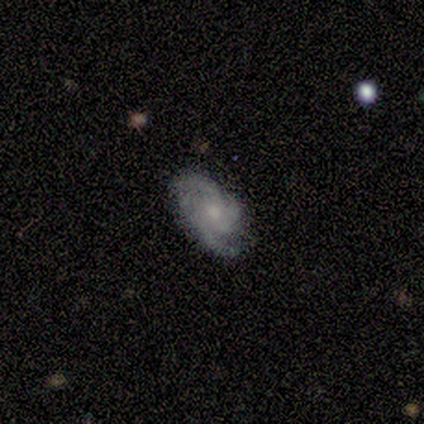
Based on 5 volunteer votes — smooth_or_featured: featured or disk (p=1.00)
disk_edge_on: no (p=1.00)
bar: no (p=0.80) [alt: weak p=0.20]
has_spiral_arms: yes (p=1.00)
spiral_winding: tight (p=0.40) [tied with: medium p=0.40]
spiral_arm_count: 3 (p=0.40) [tied with: can't tell p=0.40]
bulge_size: small (p=0.80) [alt: moderate p=0.20]
merging: none (p=0.60) [alt: minor disturbance p=0.20]